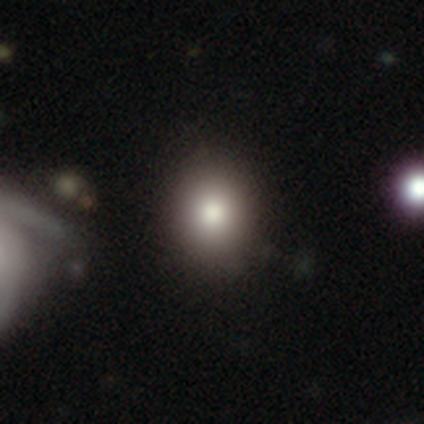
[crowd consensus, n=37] This appears to be a smooth galaxy with no disk features (84%) that is round (74%). Merging: none (88%).